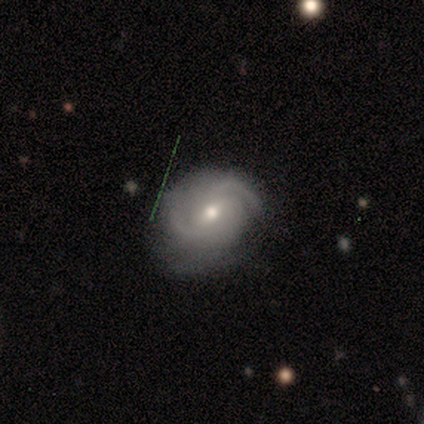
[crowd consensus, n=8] Smooth or featured: featured or disk — 75% (smooth — 25%)
Edge-on disk: no — 100%
Bar: weak — 100%
Spiral arms: yes — 100%
Spiral winding: medium — 50% (tight — 33%)
Spiral arm count: can't tell — 50% (2 — 17%)
Bulge size: moderate — 67% (small — 33%)
Merging: none — 50% (minor disturbance — 38%)